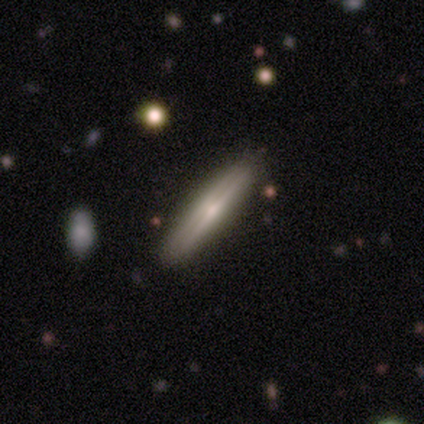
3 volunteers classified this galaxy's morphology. Q: Smooth or featured?
A: featured or disk (67%); runner-up: smooth (33%)
Q: Edge-on disk?
A: yes (100%)
Q: Edge-on bulge?
A: rounded (100%)
Q: Merging?
A: minor disturbance (67%); runner-up: none (33%)